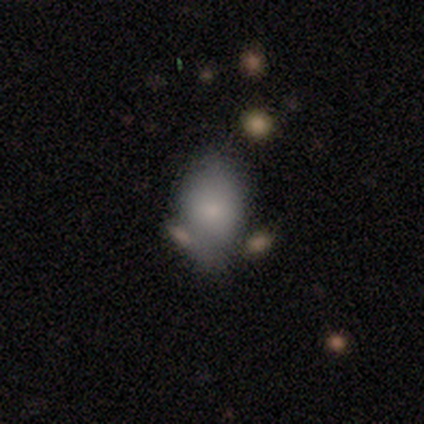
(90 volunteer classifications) Smooth or featured?
  - smooth: 77% *
  - featured or disk: 13%
  - star or artifact: 10%
How rounded?
  - in between: 72% *
  - round: 26%
  - cigar-shaped: 1%
Merging?
  - none: 58% *
  - minor disturbance: 28%
  - merger: 9%
  - major disturbance: 5%